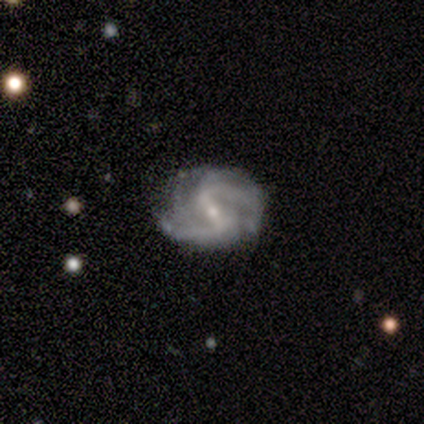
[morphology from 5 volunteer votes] Smooth or featured: featured or disk — 80% (smooth — 20%)
Edge-on disk: no — 100%
Bar: weak — 50% (strong — 25%)
Spiral arms: yes — 100%
Spiral winding: medium — 75% (tight — 25%)
Spiral arm count: 2 — 100%
Bulge size: small — 75% (moderate — 25%)
Merging: none — 100%